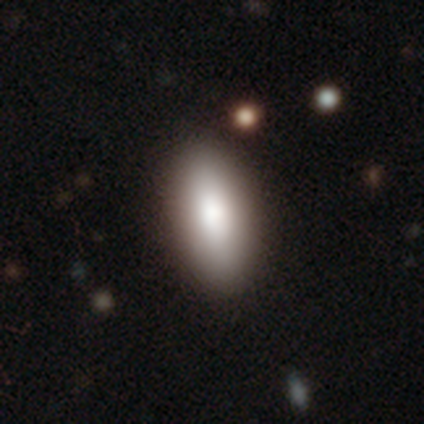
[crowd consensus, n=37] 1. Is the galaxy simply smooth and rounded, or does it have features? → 89% smooth, 8% featured or disk, 3% star or artifact.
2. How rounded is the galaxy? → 85% in between, 15% cigar-shaped, 0% round.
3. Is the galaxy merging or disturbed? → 94% none, 6% minor disturbance, 0% major disturbance, 0% merger.